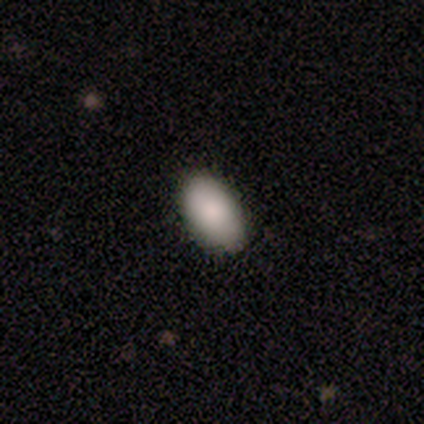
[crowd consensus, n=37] This is clearly a smooth galaxy (92%). How rounded: clearly in between (97%). Merging: clearly none (97%).